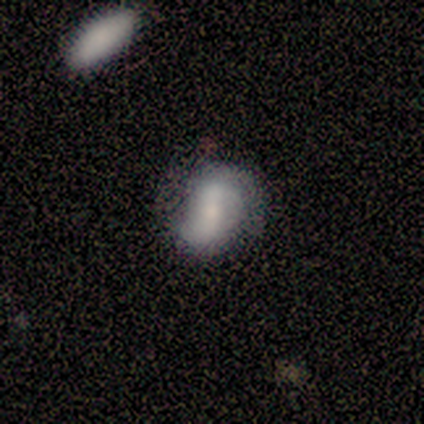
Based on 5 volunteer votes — A featured or disk galaxy (80%) with a weak bar (75%), 2 (75%) medium (50%, tied with loose) spiral arms (100%) and a moderate central bulge (50%).

Vote fractions:
- Smooth or featured? featured or disk: 80% / smooth: 20% / star or artifact: 0%
- Edge-on disk? no: 100% / yes: 0%
- Bar? weak: 75% / strong: 25% / no: 0%
- Spiral arms? yes: 100% / no: 0%
- Spiral winding? medium: 50% (tied) / loose: 50% (tied) / tight: 0%
- Spiral arm count? 2: 75% / can't tell: 25% / 1: 0% / 3: 0% / 4: 0% / more than 4: 0%
- Bulge size? moderate: 50% / small: 25% / none: 25% / dominant: 0% / large: 0%
- Merging? none: 60% / minor disturbance: 40% / major disturbance: 0% / merger: 0%